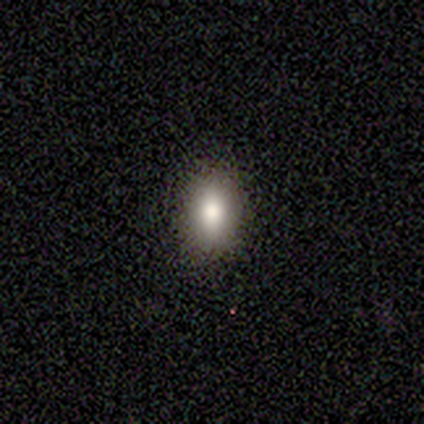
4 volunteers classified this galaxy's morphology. This appears to be a smooth galaxy with no disk features (50%, tied with star or artifact) that is in between round and cigar-shaped (100%). Merging: none (100%).